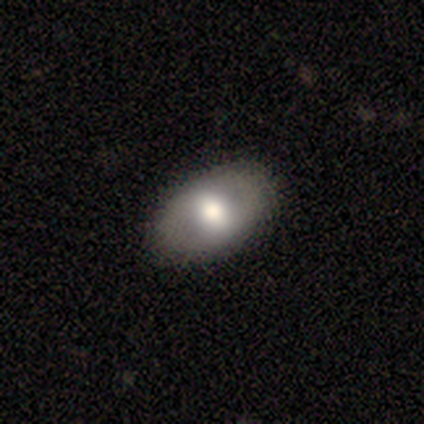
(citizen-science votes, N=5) smooth_or_featured: featured or disk (p=0.60) [alt: smooth p=0.40]
disk_edge_on: no (p=0.67) [alt: yes p=0.33]
bar: no (p=1.00)
has_spiral_arms: no (p=1.00)
bulge_size: moderate (p=0.50) [tied with: small p=0.50]
merging: none (p=0.80) [alt: minor disturbance p=0.20]